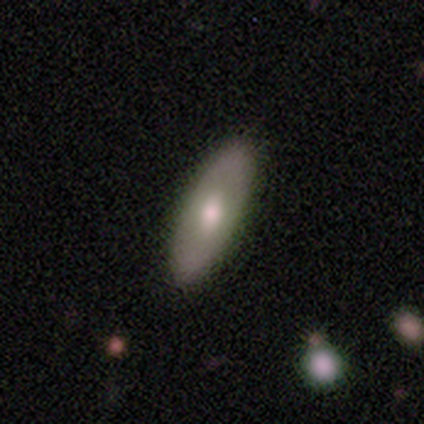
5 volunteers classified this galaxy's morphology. smooth-or-featured: featured or disk: 80% | smooth: 20% | star or artifact: 0%
  disk-edge-on: no: 75% | yes: 25%
    bar: no: 67% | weak: 33% | strong: 0%
    has-spiral-arms: no: 100% | yes: 0%
    bulge-size: large: 33% (tied) | moderate: 33% (tied) | small: 33% (tied) | dominant: 0% | none: 0%
  merging: none: 100% | minor disturbance: 0% | major disturbance: 0% | merger: 0%